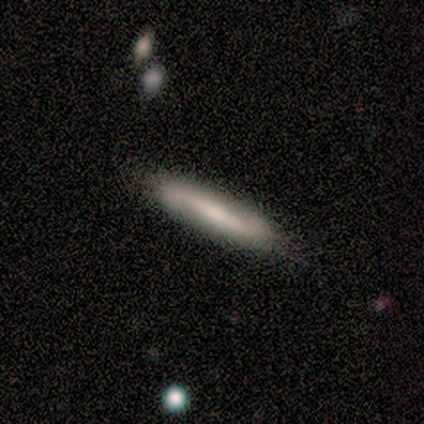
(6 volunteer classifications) A featured or disk galaxy (100%) viewed edge-on (50%, tied with no) with no central bulge (67%).

Vote fractions:
- Smooth or featured? featured or disk: 100% / smooth: 0% / star or artifact: 0%
- Edge-on disk? yes: 50% (tied) / no: 50% (tied)
- Edge-on bulge? none: 67% / rounded: 33% / boxy: 0%
- Merging? none: 83% / minor disturbance: 17% / major disturbance: 0% / merger: 0%